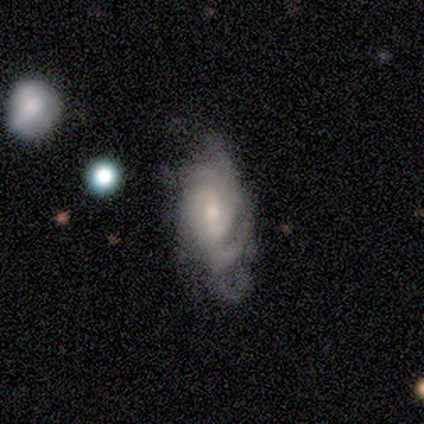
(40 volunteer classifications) Smooth or featured?
  - featured or disk: 78% *
  - smooth: 20%
  - star or artifact: 2%
Edge-on disk?
  - no: 97% *
  - yes: 3%
Bar?
  - no: 50% *
  - weak: 43%
  - strong: 7%
Spiral arms?
  - yes: 97% *
  - no: 3%
Spiral winding?
  - medium: 48% *
  - tight: 41%
  - loose: 10%
Spiral arm count?
  - can't tell: 62% *
  - 4: 14%
  - 2: 10%
  - 3: 7%
  - more than 4: 7%
  - 1: 0%
Bulge size?
  - small: 60% *
  - moderate: 33%
  - none: 7%
  - dominant: 0%
  - large: 0%
Merging?
  - major disturbance: 33% *
  - none: 21%
  - minor disturbance: 18%
  - merger: 5%